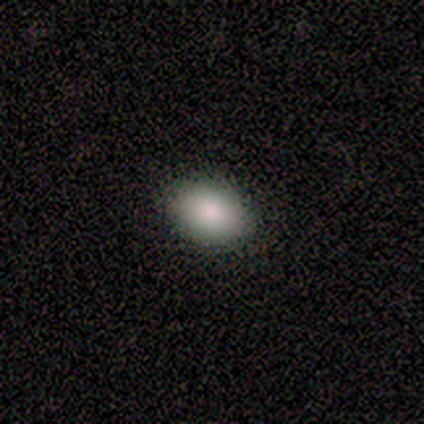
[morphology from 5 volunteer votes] Overall: smooth (100%). How rounded: in between (100%). Merging: none (100%).